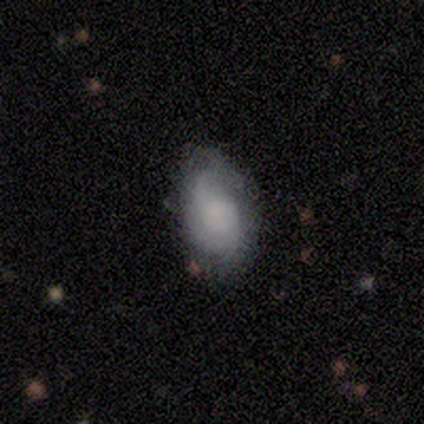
A featured or disk galaxy (80%) with no bar (100%), 2 (50%, tied with can't tell) loose (100%) spiral arms (50%, tied with no) and a small central bulge (50%). Merging: minor disturbance (80%).